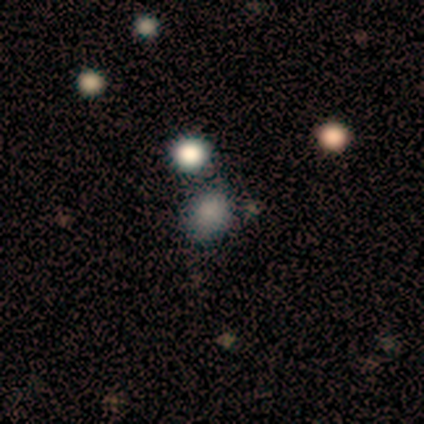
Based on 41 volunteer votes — Smooth or featured? smooth (73%)
How rounded? round (57%)
Merging? none (61%)